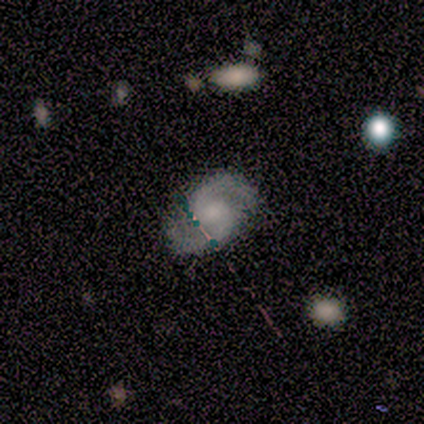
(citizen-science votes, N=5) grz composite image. It shows a featured or disk galaxy (100%) with no bar (60%), 2 (80%) medium (60%) spiral arms (100%) and a large central bulge (40%, tied with moderate). Merging: none (80%).